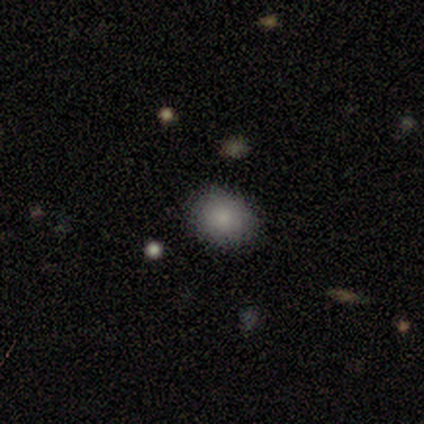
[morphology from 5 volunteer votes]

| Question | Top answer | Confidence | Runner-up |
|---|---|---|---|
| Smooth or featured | smooth | 60% | star or artifact (40%) |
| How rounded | round | 67% | in between (33%) |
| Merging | none | 100% | — |